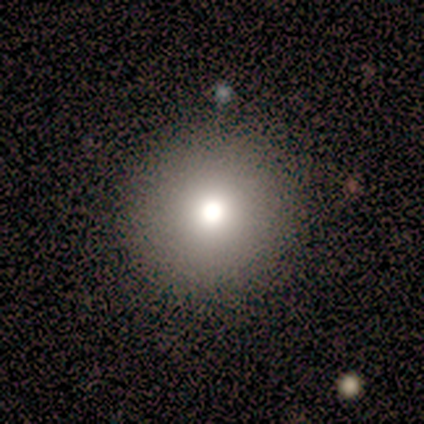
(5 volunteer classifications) Morphology: type=smooth (60%); roundness=round (100%); merging=none (100%).